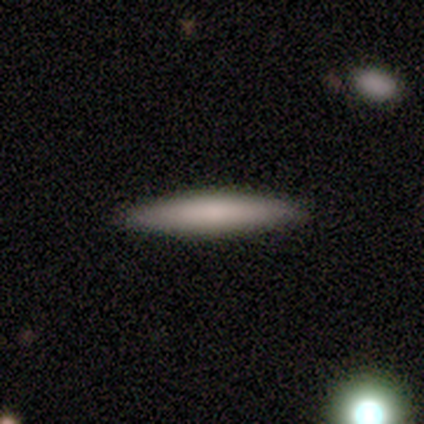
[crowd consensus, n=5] A smooth galaxy with no disk features (80%) that is cigar-shaped (100%).

Vote fractions:
- Smooth or featured? smooth: 80% / featured or disk: 20% / star or artifact: 0%
- How rounded? cigar-shaped: 100% / round: 0% / in between: 0%
- Merging? none: 100% / minor disturbance: 0% / major disturbance: 0% / merger: 0%